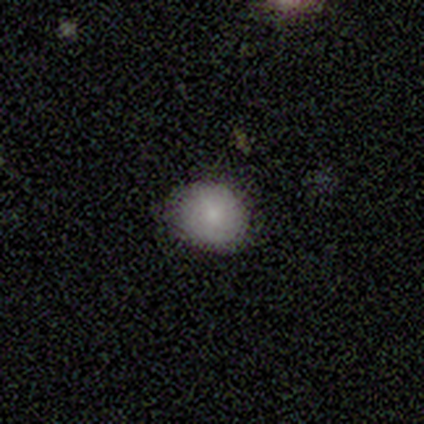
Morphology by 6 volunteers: This appears to be a smooth galaxy with no disk features (100%) that is in between round and cigar-shaped (67%). Merging: none (50%, tied with minor disturbance).